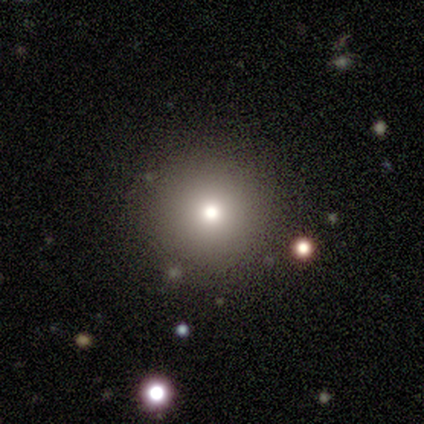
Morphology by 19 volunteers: Q: Smooth or featured?
A: smooth (79%); runner-up: star or artifact (16%)
Q: How rounded?
A: round (100%)
Q: Merging?
A: none (75%); runner-up: minor disturbance (19%)